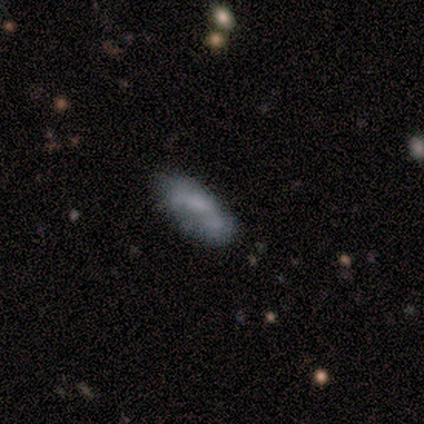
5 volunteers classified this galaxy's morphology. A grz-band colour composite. It shows a smooth galaxy with no disk features (100%) that is in between round and cigar-shaped (80%). Merging: none (60%).